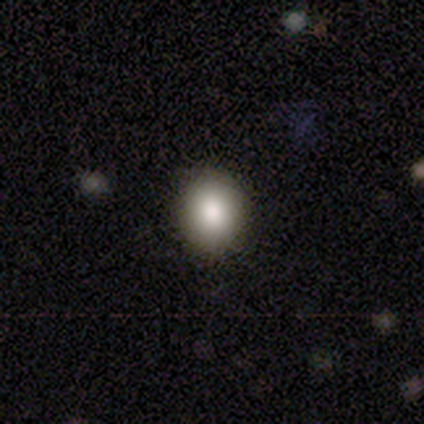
Overall: smooth (85%). How rounded: round (65%; in between 35%). Merging: none (87%).